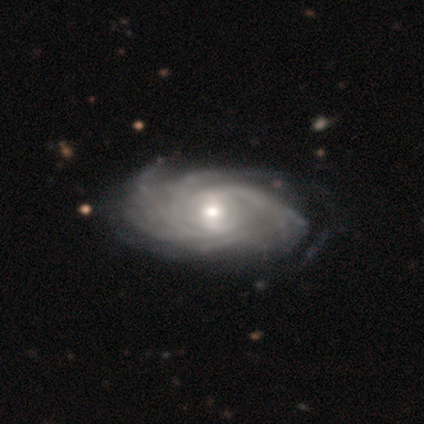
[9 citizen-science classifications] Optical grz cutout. It shows a featured or disk galaxy (89%) with no bar (50%), more than 4 (57%) tight (100%) spiral arms (88%) and a moderate central bulge (50%). Merging: none (62%).